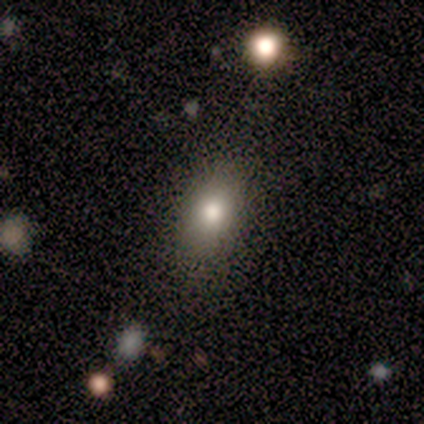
A smooth galaxy with no disk features (100%) that is in between round and cigar-shaped (100%). Merging: none (75%).